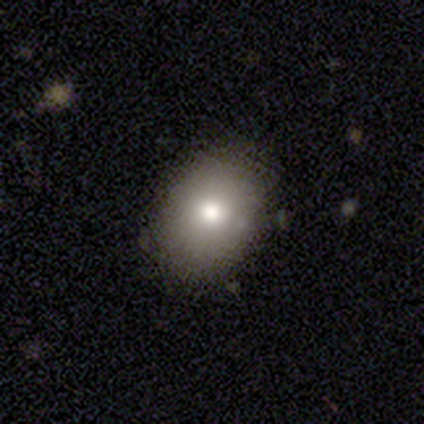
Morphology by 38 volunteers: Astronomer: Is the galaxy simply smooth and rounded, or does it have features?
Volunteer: smooth — 74%.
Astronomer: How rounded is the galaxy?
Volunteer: in between — 64%.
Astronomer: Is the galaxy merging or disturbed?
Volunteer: none — 67%.